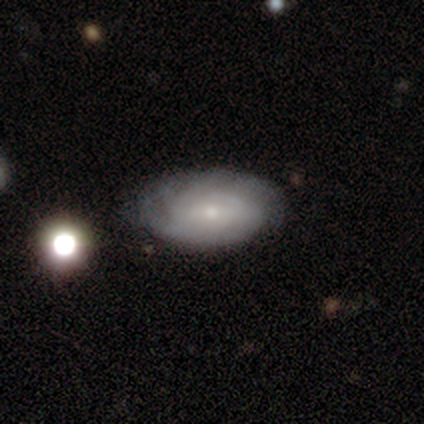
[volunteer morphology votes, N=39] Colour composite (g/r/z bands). It shows a featured or disk galaxy (59%) with a weak bar (70%), tight (74%) spiral arms (83%) and a small central bulge (91%). Merging: none (69%).